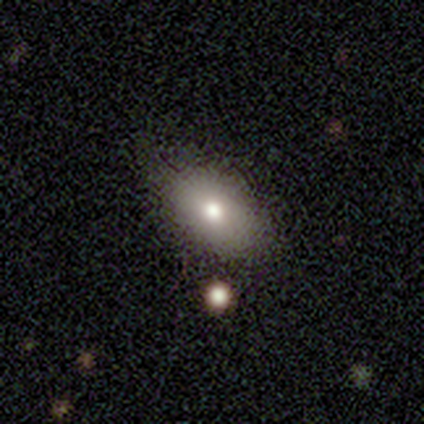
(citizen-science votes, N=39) Smooth or featured: smooth — 82% (featured or disk — 10%)
How rounded: in between — 81% (round — 16%)
Merging: none — 72% (minor disturbance — 19%)